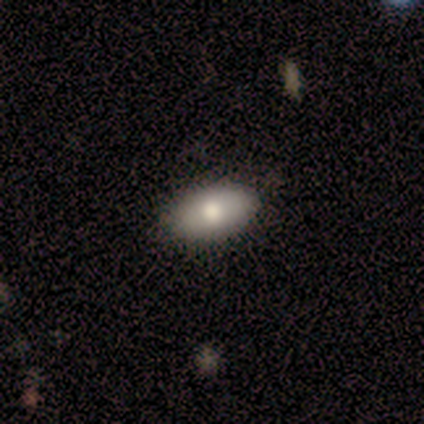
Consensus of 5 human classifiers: Q: Smooth or featured?
A: smooth (100%)
Q: How rounded?
A: in between (80%); runner-up: round (20%)
Q: Merging?
A: none (100%)